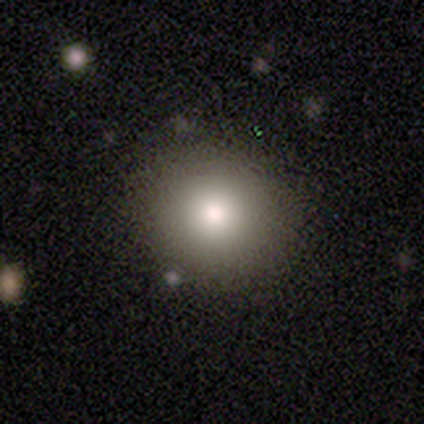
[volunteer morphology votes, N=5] A smooth galaxy with no disk features (100%) that is round (80%).

Vote fractions:
- Smooth or featured? smooth: 100% / featured or disk: 0% / star or artifact: 0%
- How rounded? round: 80% / in between: 20% / cigar-shaped: 0%
- Merging? none: 80% / minor disturbance: 20% / major disturbance: 0% / merger: 0%